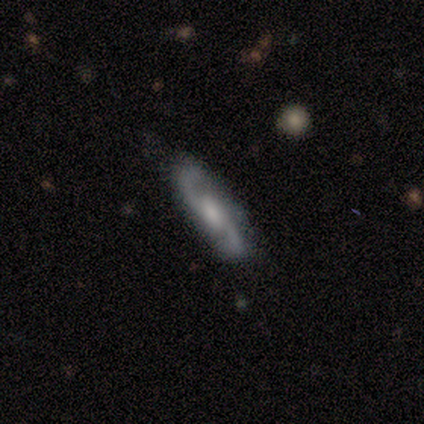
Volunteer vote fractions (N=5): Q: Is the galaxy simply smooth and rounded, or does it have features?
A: featured or disk — 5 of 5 (100%).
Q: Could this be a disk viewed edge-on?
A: no — 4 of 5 (80%).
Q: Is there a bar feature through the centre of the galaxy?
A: weak — 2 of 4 (50%).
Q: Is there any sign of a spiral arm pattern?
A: yes — 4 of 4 (100%).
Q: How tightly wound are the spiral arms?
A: medium — 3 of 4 (75%).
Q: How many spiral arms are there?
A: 2 — 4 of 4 (100%).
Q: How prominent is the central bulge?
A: moderate — 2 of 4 (50%, tied with small).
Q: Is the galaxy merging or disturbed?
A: none — 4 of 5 (80%).